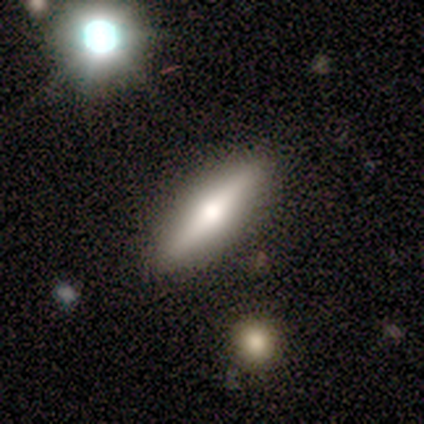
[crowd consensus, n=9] featured or disk 56%, smooth 44%, star or artifact 0%. Down the decision tree: edge-on disk — yes (100%); edge-on bulge — rounded (100%); merging — none (78%).